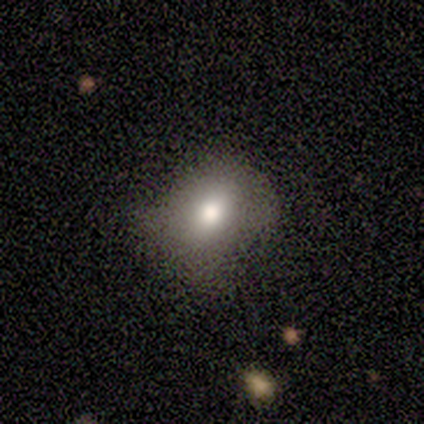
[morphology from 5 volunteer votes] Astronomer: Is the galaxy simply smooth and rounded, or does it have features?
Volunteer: smooth — 60%.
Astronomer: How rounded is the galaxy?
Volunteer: round — 67%.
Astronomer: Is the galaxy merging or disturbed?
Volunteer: none — 75%.